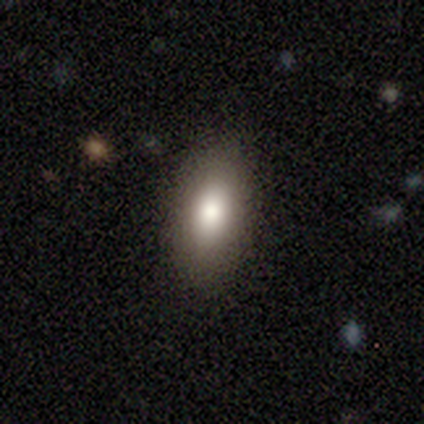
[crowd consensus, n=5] A smooth galaxy with no disk features (80%) that is in between round and cigar-shaped (100%).

Vote fractions:
- Smooth or featured? smooth: 80% / featured or disk: 20% / star or artifact: 0%
- How rounded? in between: 100% / round: 0% / cigar-shaped: 0%
- Merging? none: 80% / minor disturbance: 20% / major disturbance: 0% / merger: 0%